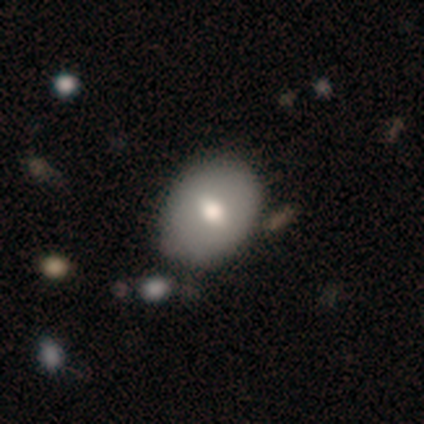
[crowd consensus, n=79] Volunteers were most divided on "how rounded": in between: 65%, round: 33%, cigar-shaped: 2%. Remaining: smooth or featured — smooth (70%); merging — none (41%).